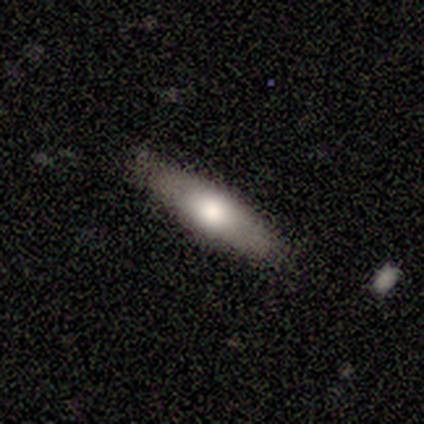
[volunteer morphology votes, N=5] This appears to be a smooth galaxy with no disk features (100%) that is cigar-shaped (100%). Merging: none (100%).